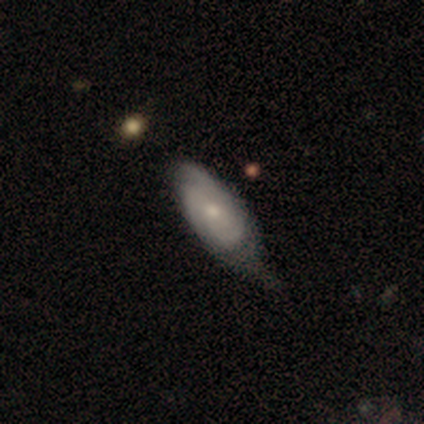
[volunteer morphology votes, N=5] smooth_or_featured: smooth (p=0.60) [alt: featured or disk p=0.40]
how_rounded: cigar-shaped (p=0.67) [alt: in between p=0.33]
merging: minor disturbance (p=0.60) [alt: none p=0.40]